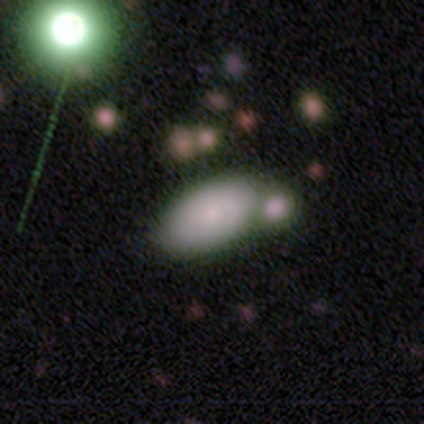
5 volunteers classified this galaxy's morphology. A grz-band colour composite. It shows a featured or disk galaxy (80%) with no bar (75%), no spiral arms (100%) and a small central bulge (75%). Merging: merger (80%).